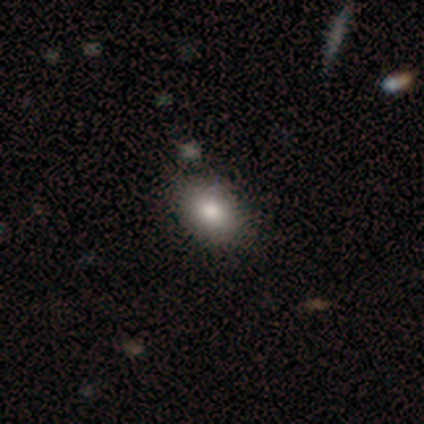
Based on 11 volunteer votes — Overall: smooth (82%). How rounded: in between (89%). Merging: none (70%; minor disturbance 30%).